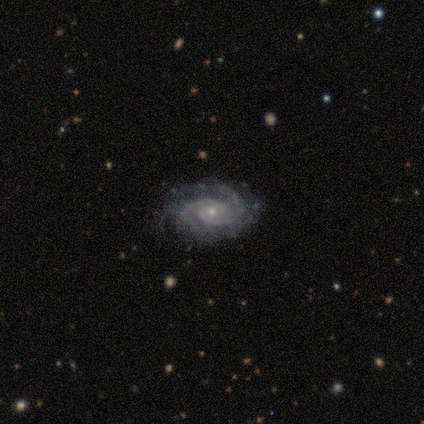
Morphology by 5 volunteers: Q: Smooth or featured?
A: featured or disk (100%)
Q: Edge-on disk?
A: no (100%)
Q: Bar?
A: no (60%); runner-up: weak (40%)
Q: Spiral arms?
A: yes (100%)
Q: Spiral winding?
A: tight (80%); runner-up: medium (20%)
Q: Spiral arm count?
A: 2 (60%); runner-up: 3 (20%)
Q: Bulge size?
A: small (80%); runner-up: moderate (20%)
Q: Merging?
A: none (100%)